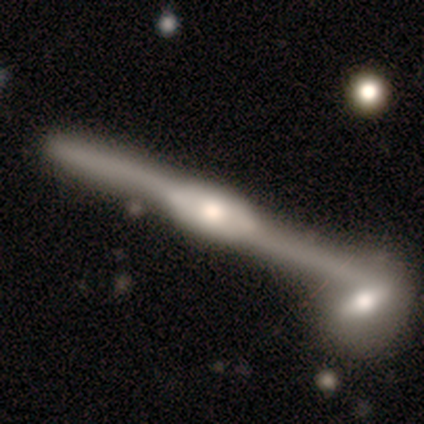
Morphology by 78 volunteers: Volunteers were most divided on "edge-on bulge": rounded: 55%, boxy: 44%, none: 2%. Remaining: edge-on disk — yes (93%); smooth or featured — featured or disk (86%); merging — merger (47%).